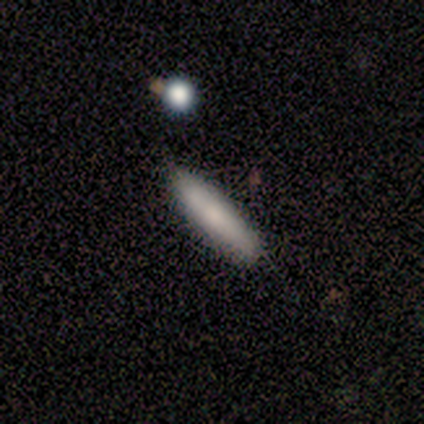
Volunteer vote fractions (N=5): This is clearly a smooth galaxy (80%). How rounded: likely cigar-shaped (75%). Merging: clearly none (100%).